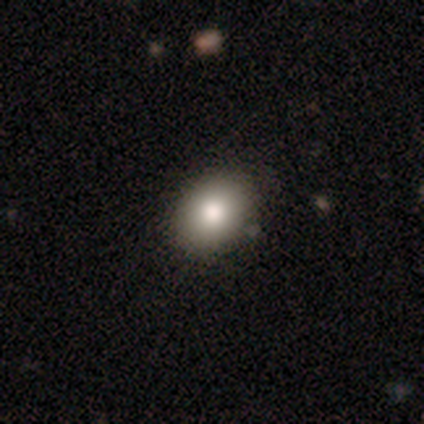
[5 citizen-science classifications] Smooth or featured: smooth — 100%
How rounded: in between — 80% (round — 20%)
Merging: none — 100%